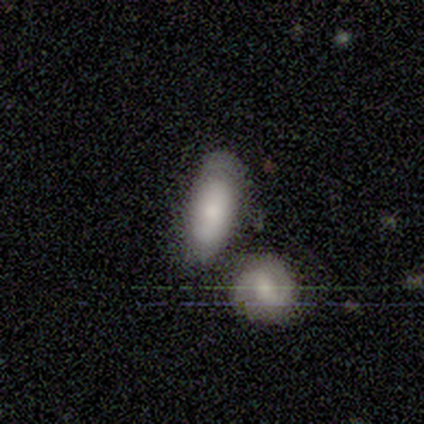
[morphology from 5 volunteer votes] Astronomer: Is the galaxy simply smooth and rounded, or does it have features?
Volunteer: smooth — 100%.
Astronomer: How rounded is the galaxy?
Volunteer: in between — 100%.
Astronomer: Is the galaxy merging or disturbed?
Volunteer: none — 40%, tied with minor disturbance at 40%.